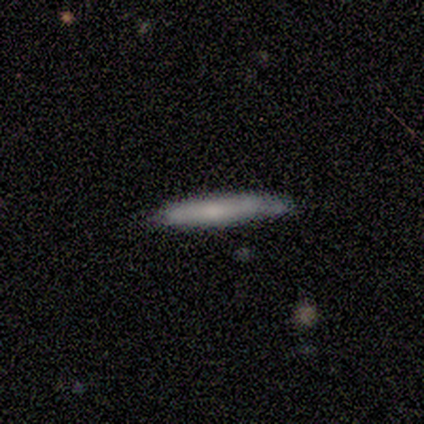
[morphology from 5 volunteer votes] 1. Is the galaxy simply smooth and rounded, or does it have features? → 60% smooth, 40% featured or disk, 0% star or artifact.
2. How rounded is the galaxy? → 100% cigar-shaped, 0% round, 0% in between.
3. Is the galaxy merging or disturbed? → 80% none, 20% minor disturbance, 0% major disturbance, 0% merger.